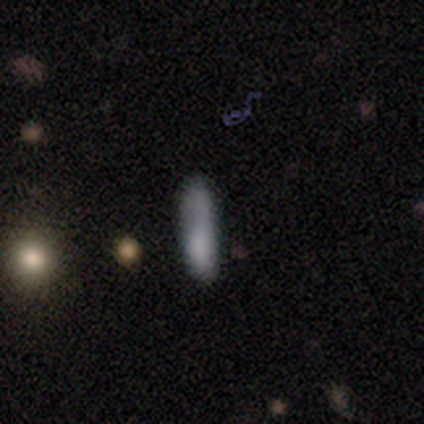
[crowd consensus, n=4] smooth-or-featured: smooth: 100% | featured or disk: 0% | star or artifact: 0%
  how-rounded: cigar-shaped: 75% | in between: 25% | round: 0%
  merging: none: 50% | minor disturbance: 25% | merger: 25% | major disturbance: 0%